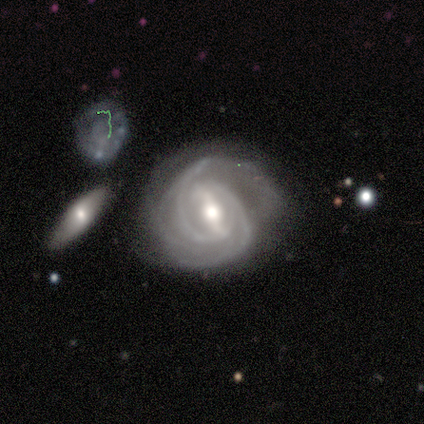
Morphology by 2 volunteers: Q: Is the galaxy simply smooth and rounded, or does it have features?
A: featured or disk — 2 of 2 (100%).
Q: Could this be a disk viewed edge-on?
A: no — 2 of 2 (100%).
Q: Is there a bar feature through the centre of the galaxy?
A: weak — 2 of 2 (100%).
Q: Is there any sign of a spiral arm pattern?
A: yes — 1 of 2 (50%, tied with no).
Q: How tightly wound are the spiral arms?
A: medium — 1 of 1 (100%).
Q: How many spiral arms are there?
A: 2 — 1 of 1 (100%).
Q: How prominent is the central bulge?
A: moderate — 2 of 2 (100%).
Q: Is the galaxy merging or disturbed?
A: none — 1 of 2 (50%, tied with minor disturbance).